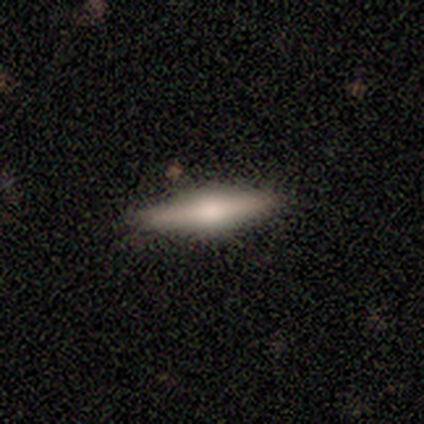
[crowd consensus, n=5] A smooth galaxy with no disk features (80%) that is cigar-shaped (75%).

Vote fractions:
- Smooth or featured? smooth: 80% / featured or disk: 20% / star or artifact: 0%
- How rounded? cigar-shaped: 75% / in between: 25% / round: 0%
- Merging? none: 100% / minor disturbance: 0% / major disturbance: 0% / merger: 0%